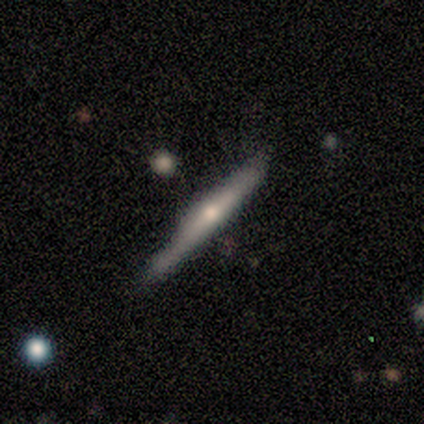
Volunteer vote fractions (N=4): Smooth or featured? 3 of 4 (75%) said featured or disk. Edge-on disk? 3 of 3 (100%) said yes. Edge-on bulge? 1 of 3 (33%, tied with none and rounded) said boxy. Merging? 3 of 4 (75%) said none.